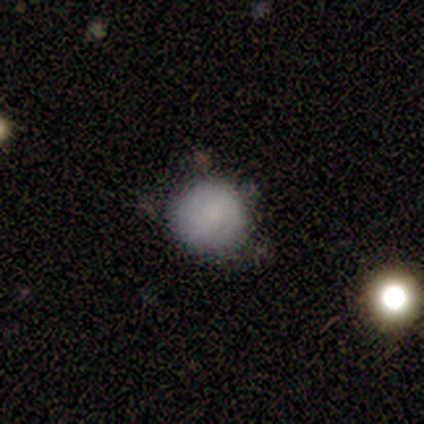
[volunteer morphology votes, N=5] This appears to be a smooth galaxy with no disk features (80%) that is round (100%). Merging: none (60%).